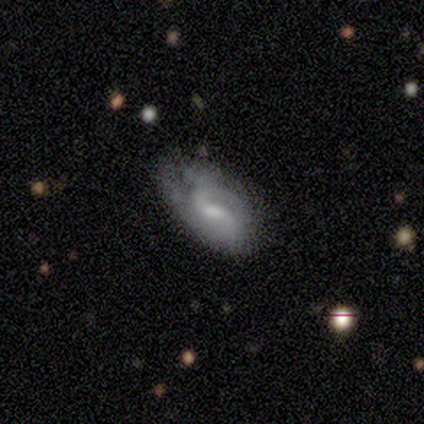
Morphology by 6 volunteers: Smooth or featured? 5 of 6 (83%) said featured or disk. Edge-on disk? 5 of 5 (100%) said no. Bar? 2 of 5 (40%, tied with no) said weak. Spiral arms? 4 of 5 (80%) said yes. Spiral winding? 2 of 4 (50%) said loose. Spiral arm count? 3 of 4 (75%) said 2. Bulge size? 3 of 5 (60%) said none. Merging? 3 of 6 (50%) said minor disturbance.